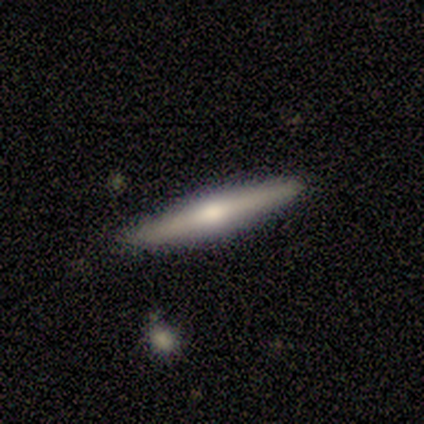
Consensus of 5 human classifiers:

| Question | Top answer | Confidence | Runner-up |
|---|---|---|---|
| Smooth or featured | featured or disk | 80% | smooth (20%) |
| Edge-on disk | yes | 100% | — |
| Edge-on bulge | rounded | 75% | none (25%) |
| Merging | none | 100% | — |